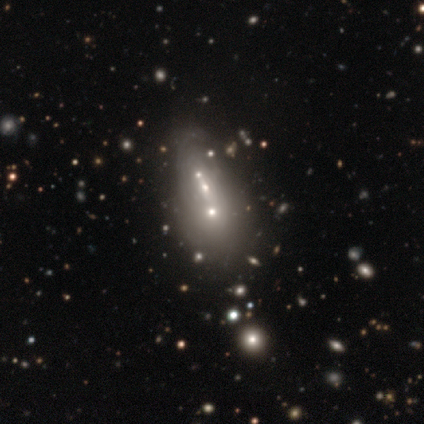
Overall: smooth (44%; featured or disk 36%). How rounded: round (55%; in between 27%). Merging: merger (45%).